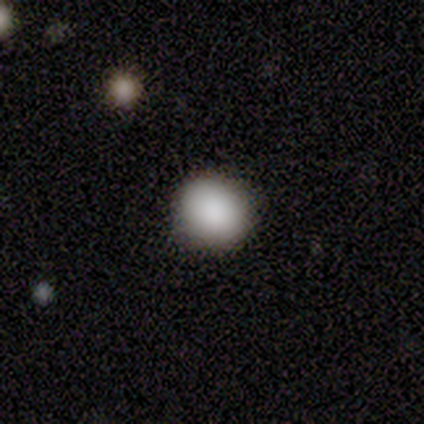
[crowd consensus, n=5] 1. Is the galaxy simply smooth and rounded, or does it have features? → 80% smooth, 20% featured or disk, 0% star or artifact.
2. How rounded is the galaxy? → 75% round, 25% in between, 0% cigar-shaped.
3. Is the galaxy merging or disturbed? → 100% none, 0% minor disturbance, 0% major disturbance, 0% merger.